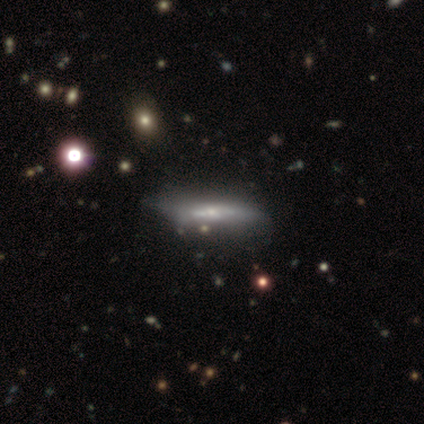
Smooth or featured? 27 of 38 (71%) said featured or disk. Edge-on disk? 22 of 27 (81%) said yes. Edge-on bulge? 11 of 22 (50%) said none. Merging? 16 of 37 (43%) said none.